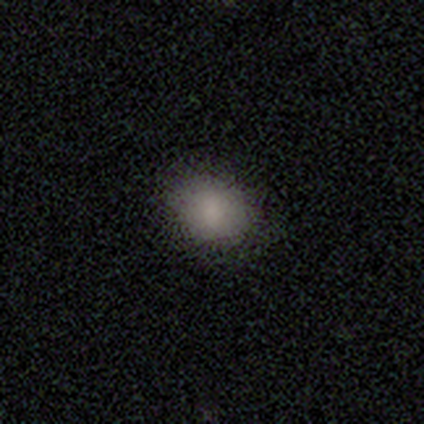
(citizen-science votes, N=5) Smooth or featured? 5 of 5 (100%) said smooth. How rounded? 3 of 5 (60%) said in between. Merging? 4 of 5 (80%) said none.